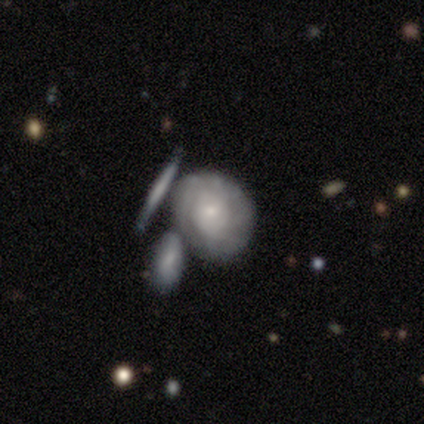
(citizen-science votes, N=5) featured or disk 80%, smooth 20%, star or artifact 0%. Down the decision tree: edge-on disk — no (100%); bar — no (100%); spiral arms — yes (50%, tied with no); spiral arm count — can't tell (100%); spiral winding — tight (50%, tied with medium); bulge size — small (75%); merging — none (60%).